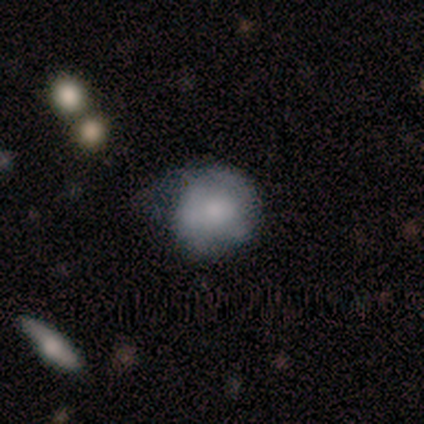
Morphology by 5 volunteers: Smooth or featured? 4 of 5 (80%) said smooth. How rounded? 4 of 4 (100%) said round. Merging? 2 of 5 (40%, tied with minor disturbance) said none.